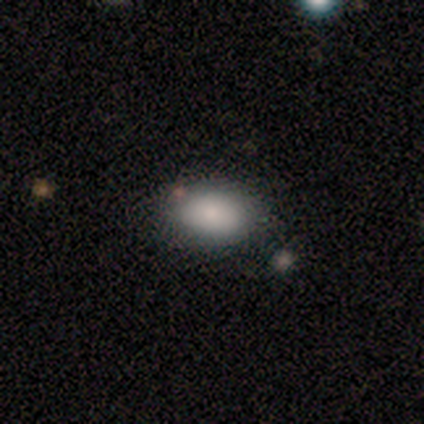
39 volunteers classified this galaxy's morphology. Overall: smooth (82%). How rounded: in between (84%). Merging: none (74%).